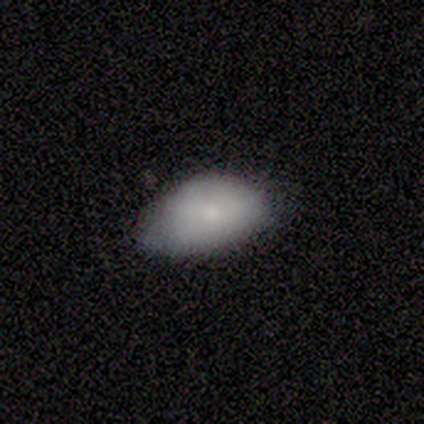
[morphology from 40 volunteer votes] This appears to be a smooth galaxy with no disk features (90%) that is in between round and cigar-shaped (94%). Merging: none (38%).